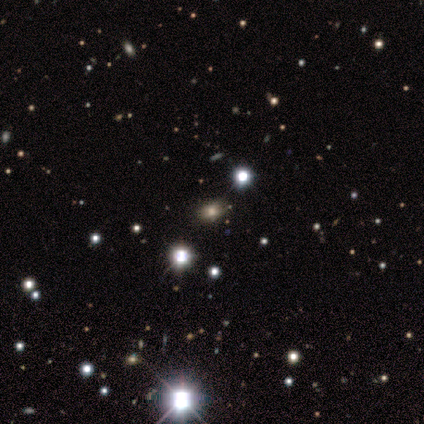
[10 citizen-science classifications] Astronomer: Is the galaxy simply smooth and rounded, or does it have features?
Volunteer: smooth — 40%, tied with star or artifact at 40%.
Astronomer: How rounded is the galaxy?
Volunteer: in between — 75%.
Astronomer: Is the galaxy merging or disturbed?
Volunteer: none — 83%.